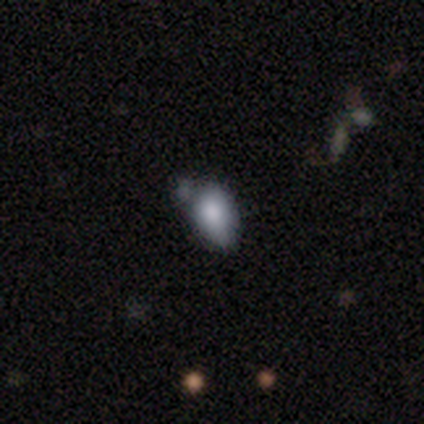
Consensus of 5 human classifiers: smooth 40% (tied), featured or disk 40% (tied), star or artifact 20%. Down the decision tree: how rounded — in between (100%); merging — minor disturbance (50%).